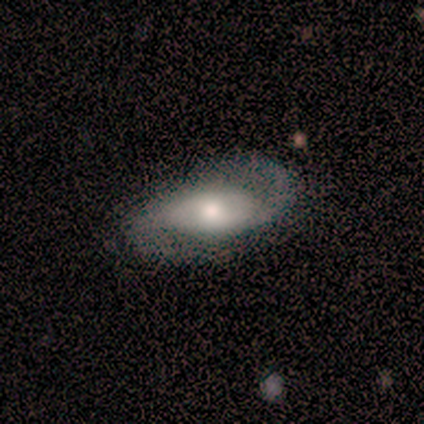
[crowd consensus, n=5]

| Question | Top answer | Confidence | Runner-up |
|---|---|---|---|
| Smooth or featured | featured or disk | 60% | smooth (40%) |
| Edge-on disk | no | 100% | — |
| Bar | weak | 67% | strong (33%) |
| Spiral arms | yes | 100% | — |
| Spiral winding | tight | 67% | loose (33%) |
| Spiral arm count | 2 | 100% | — |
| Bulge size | moderate | 100% | — |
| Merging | none | 80% | minor disturbance (20%) |